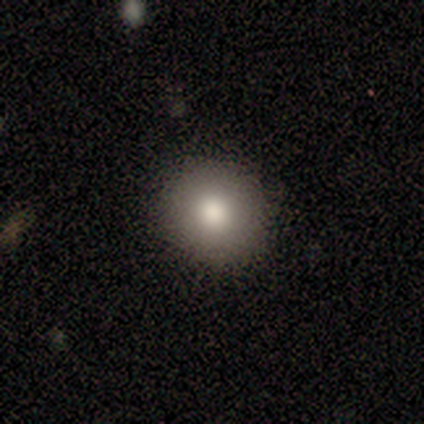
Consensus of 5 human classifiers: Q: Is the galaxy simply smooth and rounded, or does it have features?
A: smooth — 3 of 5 (60%).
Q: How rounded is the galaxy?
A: round — 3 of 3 (100%).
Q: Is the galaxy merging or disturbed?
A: none — 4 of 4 (100%).